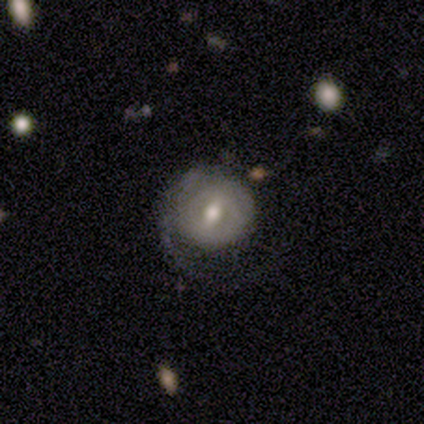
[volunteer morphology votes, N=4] type=featured or disk (100%); edge-on=no (100%); bar=no (75%); spiral arms=yes (75%); winding=tight (33%, tied with medium and loose); arm count=2 (67%); bulge=moderate (75%); merging=none (75%).